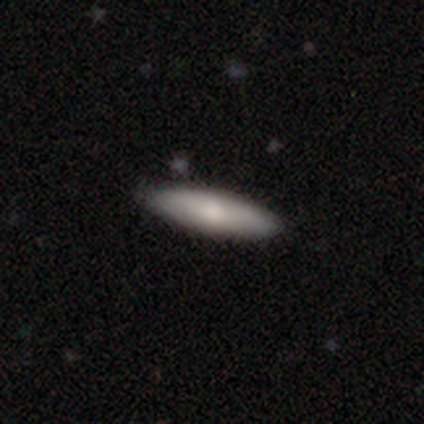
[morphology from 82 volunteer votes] This appears to be a smooth galaxy with no disk features (68%) that is cigar-shaped (59%). Merging: none (42%).